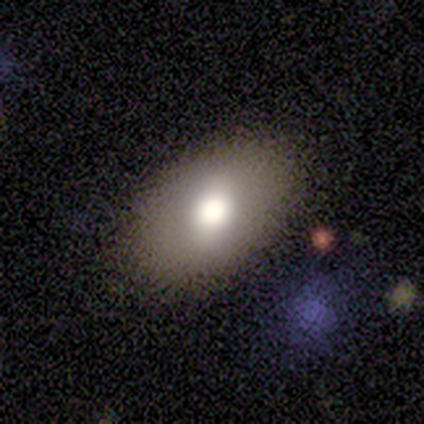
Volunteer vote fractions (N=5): Q: Smooth or featured?
A: smooth (80%); runner-up: featured or disk (20%)
Q: How rounded?
A: in between (100%)
Q: Merging?
A: none (100%)